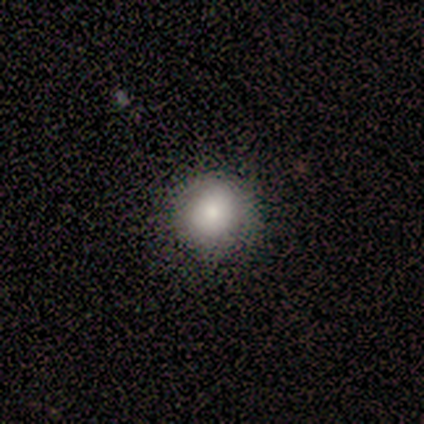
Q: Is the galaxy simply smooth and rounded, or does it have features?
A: smooth — 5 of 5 (100%).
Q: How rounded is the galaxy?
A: round — 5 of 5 (100%).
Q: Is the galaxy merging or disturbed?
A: none — 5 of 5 (100%).